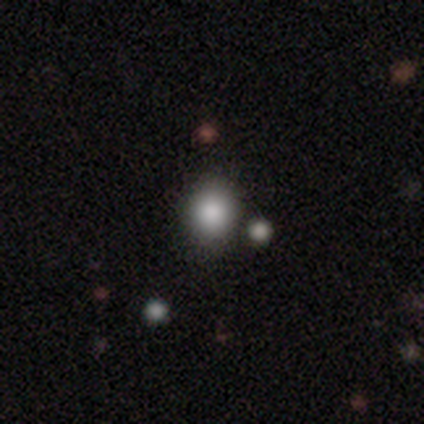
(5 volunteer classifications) A smooth galaxy with no disk features (80%) that is round (50%, tied with in between). Merging: none (80%).